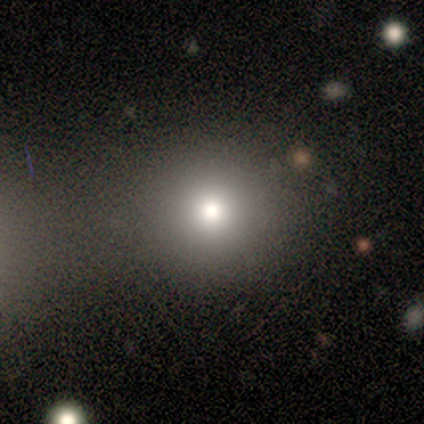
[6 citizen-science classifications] Morphology: type=smooth (83%); roundness=round (100%); merging=none (50%, tied with merger).